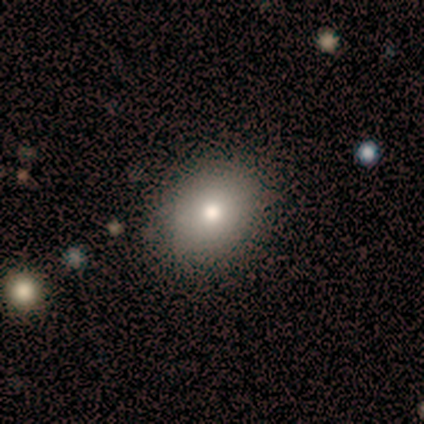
Smooth or featured? smooth (80%)
How rounded? round (75%)
Merging? none (80%)